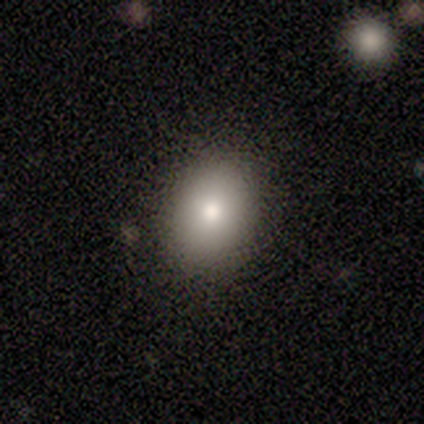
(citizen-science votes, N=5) Morphology: type=smooth (80%); roundness=round (50%, tied with in between); merging=none (75%).